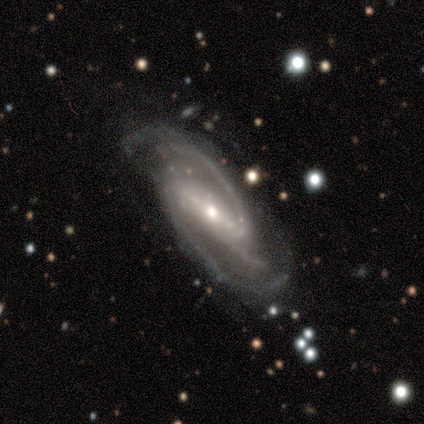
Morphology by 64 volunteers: type=featured or disk (92%); edge-on=no (92%); bar=strong (57%); spiral arms=yes (100%); winding=medium (67%); arm count=2 (74%); bulge=small (57%); merging=none (44%).